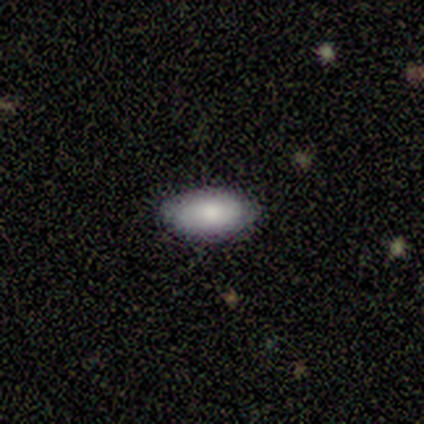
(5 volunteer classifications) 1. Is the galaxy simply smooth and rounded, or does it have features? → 100% smooth, 0% featured or disk, 0% star or artifact.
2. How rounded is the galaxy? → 100% in between, 0% round, 0% cigar-shaped.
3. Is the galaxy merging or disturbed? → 80% none, 20% major disturbance, 0% minor disturbance, 0% merger.